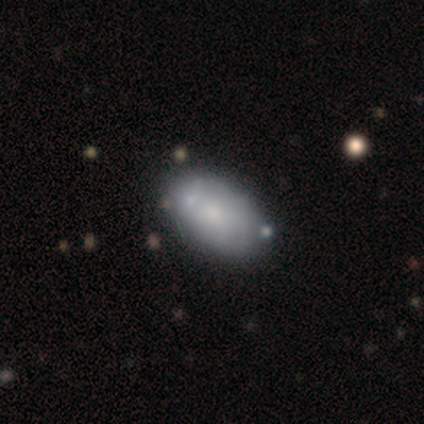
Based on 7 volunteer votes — Smooth or featured? 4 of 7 (57%) said smooth. How rounded? 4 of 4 (100%) said in between. Merging? 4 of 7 (57%) said none.